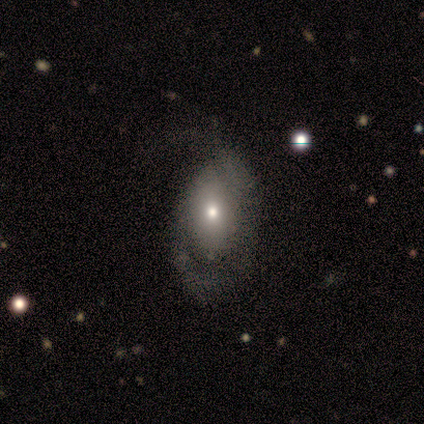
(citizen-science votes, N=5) Q: Smooth or featured?
A: featured or disk (60%); runner-up: smooth (20%)
Q: Edge-on disk?
A: no (100%)
Q: Bar?
A: no (100%)
Q: Spiral arms?
A: yes (67%); runner-up: no (33%)
Q: Spiral winding?
A: tight (50%); tied with: loose (50%)
Q: Spiral arm count?
A: 2 (50%); tied with: can't tell (50%)
Q: Bulge size?
A: moderate (67%); runner-up: small (33%)
Q: Merging?
A: none (50%); tied with: minor disturbance (50%)